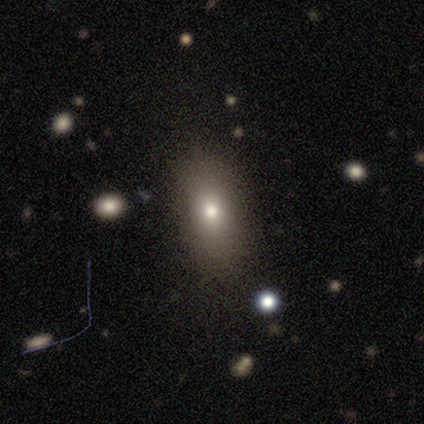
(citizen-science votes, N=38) Smooth or featured?
  - smooth: 79% *
  - featured or disk: 16%
  - star or artifact: 5%
How rounded?
  - in between: 93% *
  - cigar-shaped: 7%
  - round: 0%
Merging?
  - none: 92% *
  - minor disturbance: 8%
  - major disturbance: 0%
  - merger: 0%